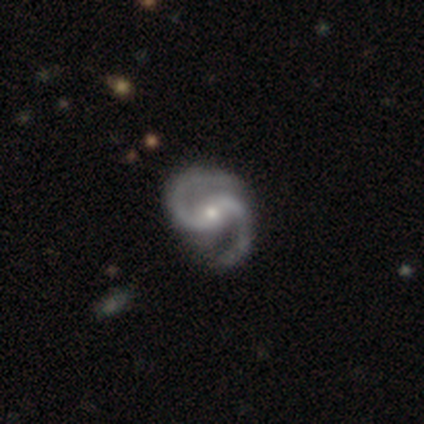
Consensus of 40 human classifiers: This is clearly a featured or disk galaxy (100%). It is clearly not viewed edge-on (100%). Bar: possibly weak (48%). Spiral arm pattern: clearly yes (100%). Spiral arm count: clearly 2 (95%). Spiral winding: likely medium (78%). Central bulge: likely small (60%). Merging: possibly none (57%).